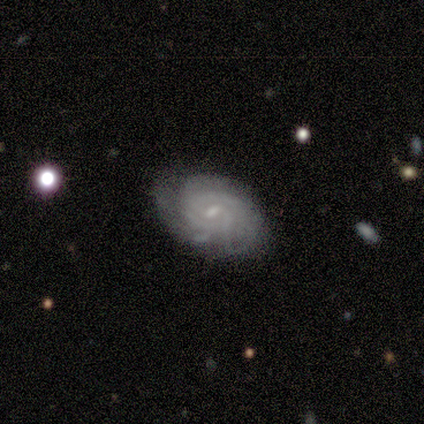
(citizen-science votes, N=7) featured or disk 86%, smooth 14%, star or artifact 0%. Down the decision tree: edge-on disk — no (100%); bar — weak (50%, tied with no); spiral arms — yes (100%); spiral arm count — 3 (33%, tied with can't tell); spiral winding — tight (67%); bulge size — small (83%); merging — none (71%).